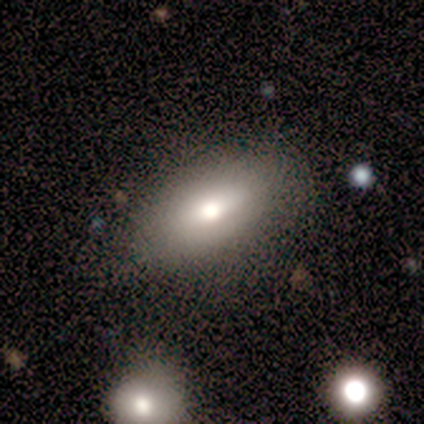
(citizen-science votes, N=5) Morphology: type=smooth (80%); roundness=in between (75%); merging=none (60%).